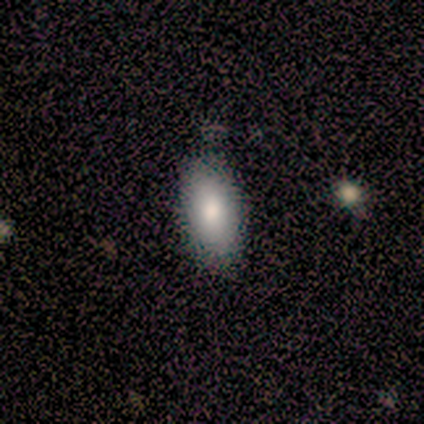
Overall: smooth (100%). How rounded: in between (100%). Merging: none (100%).